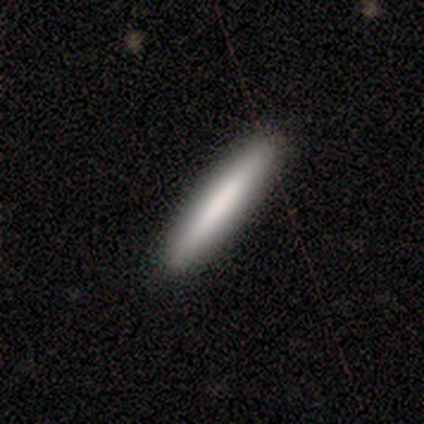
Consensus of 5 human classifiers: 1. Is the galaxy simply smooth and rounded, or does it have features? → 60% smooth, 40% featured or disk, 0% star or artifact.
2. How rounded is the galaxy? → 67% cigar-shaped, 33% in between, 0% round.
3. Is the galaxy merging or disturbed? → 100% none, 0% minor disturbance, 0% major disturbance, 0% merger.